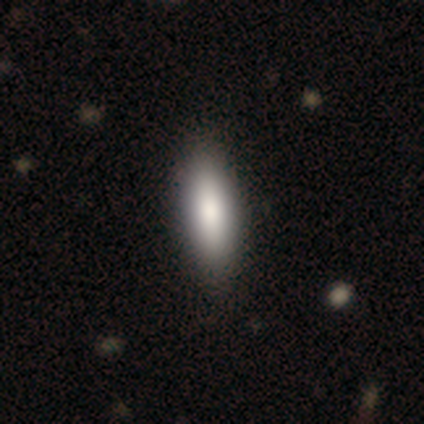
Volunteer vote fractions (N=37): Smooth or featured: smooth — 76% (featured or disk — 19%)
How rounded: cigar-shaped — 57% (in between — 43%)
Merging: none — 69% (minor disturbance — 3%)